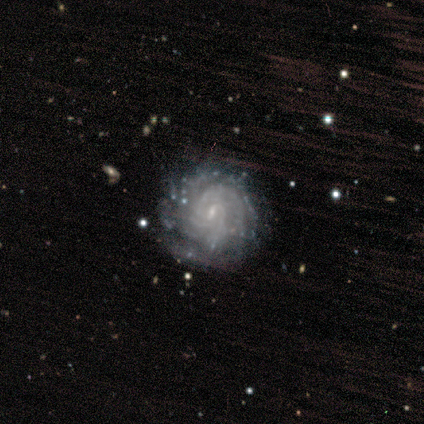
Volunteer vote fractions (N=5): Overall: featured or disk (80%). Edge-on disk: no (100%). Bar: weak (50%; strong 25%). Spiral arms: yes (100%). Spiral arm count: can't tell (100%). Spiral winding: tight (50%, tied with medium). Bulge size: small (100%). Merging: none (50%; major disturbance 25%).